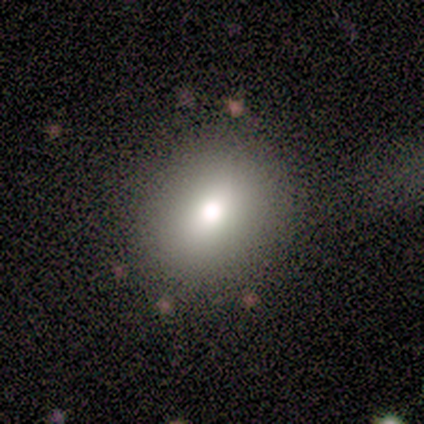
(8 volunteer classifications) Volunteers were most divided on "smooth or featured": smooth: 62%, featured or disk: 25%, star or artifact: 12%. More confident: how rounded — round (100%); merging — none (71%).